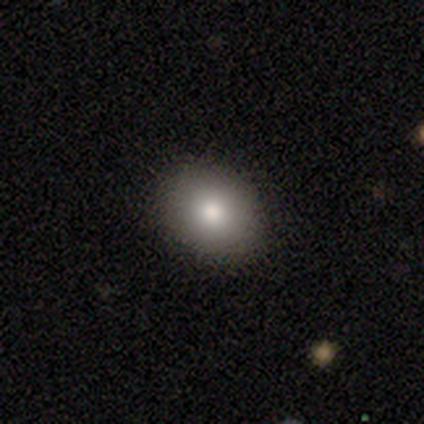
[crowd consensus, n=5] Smooth or featured? 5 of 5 (100%) said smooth. How rounded? 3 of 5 (60%) said in between. Merging? 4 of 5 (80%) said none.